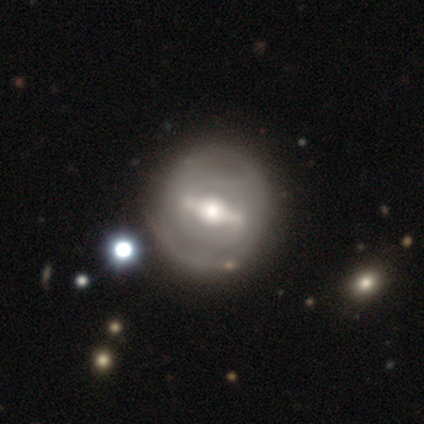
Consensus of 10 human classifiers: Smooth or featured?
  - featured or disk: 70% *
  - smooth: 30%
  - star or artifact: 0%
Edge-on disk?
  - no: 100% *
  - yes: 0%
Bar?
  - strong: 86% *
  - no: 14%
  - weak: 0%
Spiral arms?
  - no: 57% *
  - yes: 43%
Bulge size?
  - large: 57% *
  - moderate: 43%
  - dominant: 0%
  - small: 0%
  - none: 0%
Merging?
  - none: 70% *
  - minor disturbance: 10%
  - major disturbance: 10%
  - merger: 10%